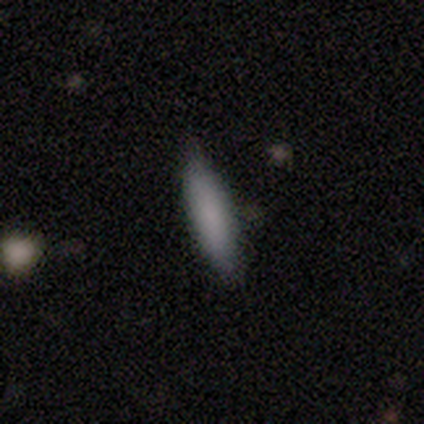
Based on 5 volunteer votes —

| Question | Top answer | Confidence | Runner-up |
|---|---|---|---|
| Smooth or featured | smooth | 100% | — |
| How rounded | cigar-shaped | 100% | — |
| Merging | none | 100% | — |